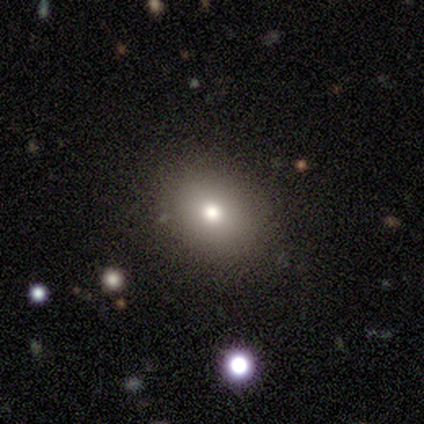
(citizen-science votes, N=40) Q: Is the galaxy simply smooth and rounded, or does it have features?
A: smooth — 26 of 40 (65%).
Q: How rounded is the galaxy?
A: round — 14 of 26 (54%).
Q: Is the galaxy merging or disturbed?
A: none — 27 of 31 (87%).